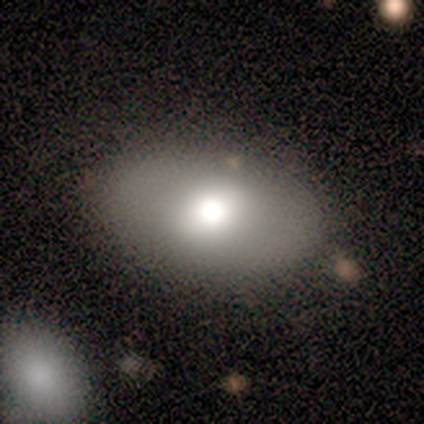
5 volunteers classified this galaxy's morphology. smooth_or_featured: smooth (p=0.80) [alt: featured or disk p=0.20]
how_rounded: in between (p=1.00)
merging: none (p=1.00)